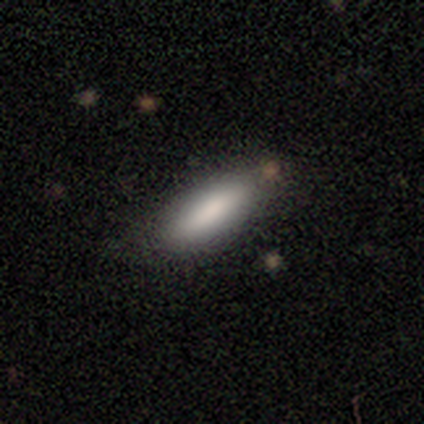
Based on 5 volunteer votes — smooth_or_featured: smooth (p=1.00)
how_rounded: in between (p=0.60) [alt: cigar-shaped p=0.40]
merging: none (p=1.00)